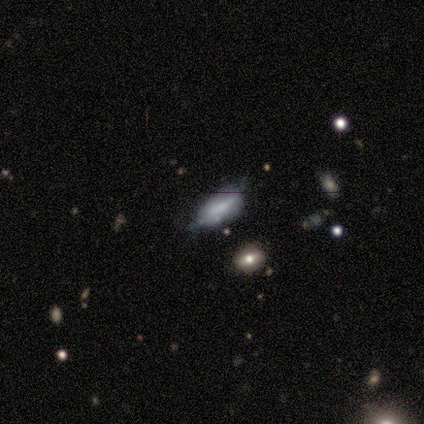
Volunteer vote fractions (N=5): smooth-or-featured: smooth: 60% | star or artifact: 40% | featured or disk: 0%
  how-rounded: in between: 100% | round: 0% | cigar-shaped: 0%
  merging: none: 100% | minor disturbance: 0% | major disturbance: 0% | merger: 0%